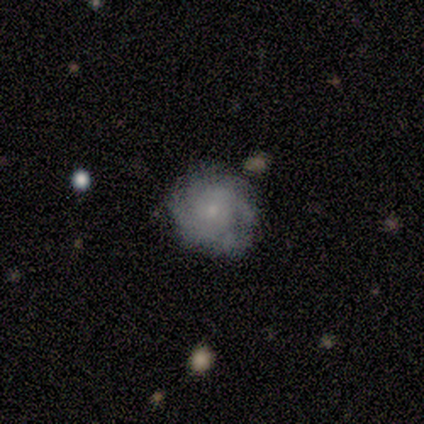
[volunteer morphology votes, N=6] Volunteers were most divided on "spiral winding" (2-way tie): medium: 40%, loose: 40%, tight: 20%. More confident: smooth or featured — featured or disk (100%); edge-on disk — no (100%); bar — no (100%); spiral arms — yes (83%); merging — none (83%); spiral arm count — can't tell (80%); bulge size — moderate (50%).